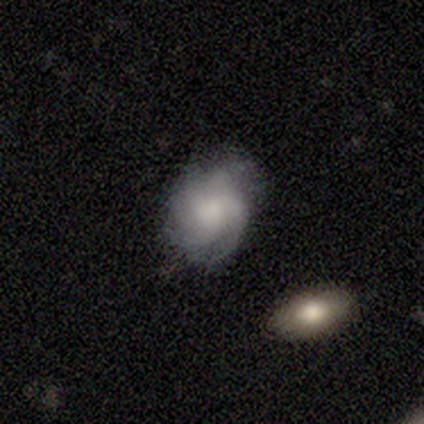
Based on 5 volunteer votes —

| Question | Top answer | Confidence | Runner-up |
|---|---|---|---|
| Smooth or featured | featured or disk | 60% | smooth (40%) |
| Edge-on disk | no | 100% | — |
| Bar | no | 100% | — |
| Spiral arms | yes | 67% | no (33%) |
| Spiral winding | medium | 50% | tied: loose (50%) |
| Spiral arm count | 4 | 100% | — |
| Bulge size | large | 67% | moderate (33%) |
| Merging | none | 80% | minor disturbance (20%) |